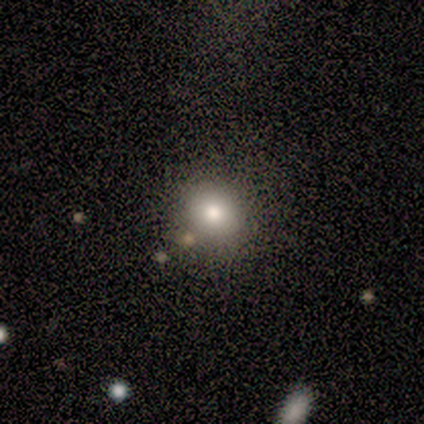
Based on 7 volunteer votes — A smooth galaxy with no disk features (71%) that is round (100%). Merging: none (100%).